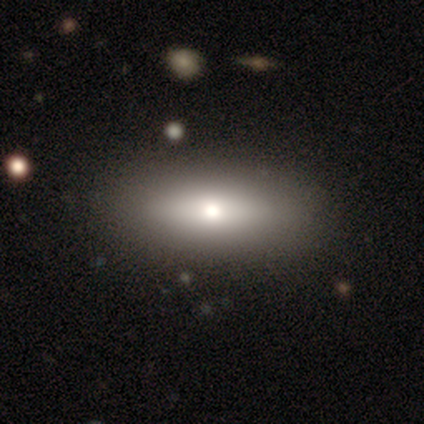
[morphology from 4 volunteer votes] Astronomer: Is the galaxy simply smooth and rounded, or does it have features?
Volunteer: smooth — 50%, tied with featured or disk at 50%.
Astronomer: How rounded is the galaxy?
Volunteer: in between — 100%.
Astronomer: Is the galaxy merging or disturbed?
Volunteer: none — 50%, tied with minor disturbance at 50%.